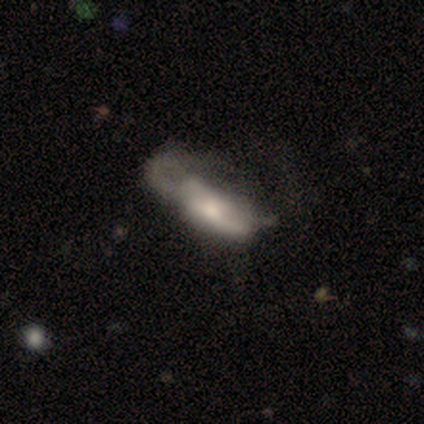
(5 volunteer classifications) Smooth or featured?
  - featured or disk: 80% *
  - smooth: 20%
  - star or artifact: 0%
Edge-on disk?
  - no: 100% *
  - yes: 0%
Bar?
  - no: 100% *
  - strong: 0%
  - weak: 0%
Spiral arms?
  - no: 75% *
  - yes: 25%
Bulge size?
  - moderate: 75% *
  - small: 25%
  - dominant: 0%
  - large: 0%
  - none: 0%
Merging?
  - major disturbance: 60% *
  - none: 20%
  - merger: 20%
  - minor disturbance: 0%